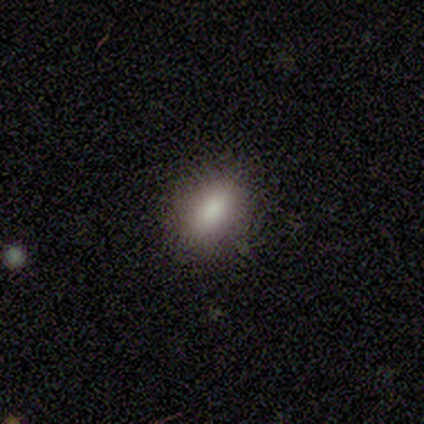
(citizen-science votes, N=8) Volunteers were most divided on "how rounded": in between: 86%, round: 14%, cigar-shaped: 0%. More confident: smooth or featured — smooth (88%); merging — none (86%).